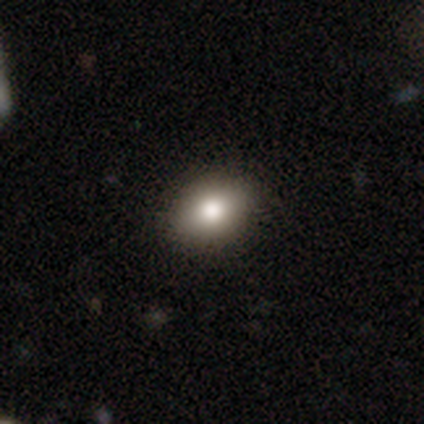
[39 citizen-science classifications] This is likely a smooth galaxy (79%). How rounded: likely in between (71%). Merging: clearly none (97%).